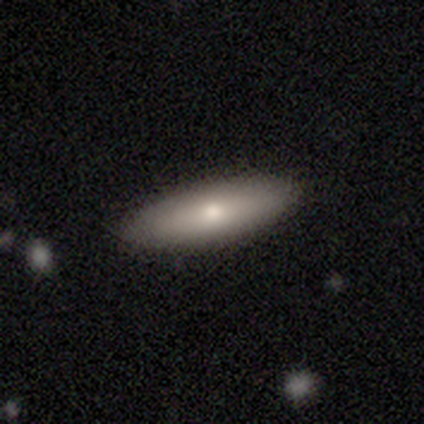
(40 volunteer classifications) This appears to be a smooth galaxy with no disk features (78%) that is in between round and cigar-shaped (68%). Merging: none (77%).